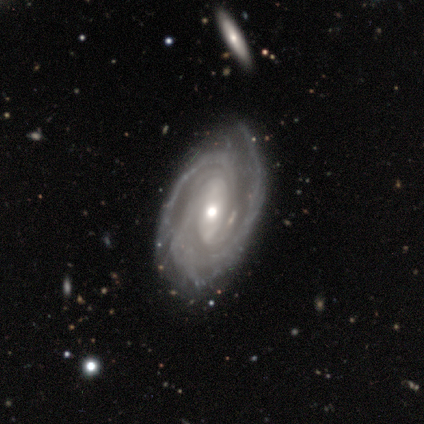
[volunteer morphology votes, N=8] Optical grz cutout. It shows a featured or disk galaxy (100%) with no bar (75%), 3 (50%) tight (88%) spiral arms (100%) and a moderate central bulge (50%, tied with small). Merging: none (88%).